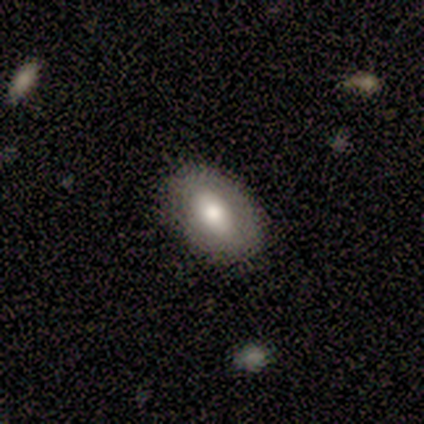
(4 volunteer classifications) This appears to be a featured or disk galaxy (75%) with no bar (67%), no spiral arms (100%) and a moderate central bulge (33%, tied with small and none). Merging: none (75%).